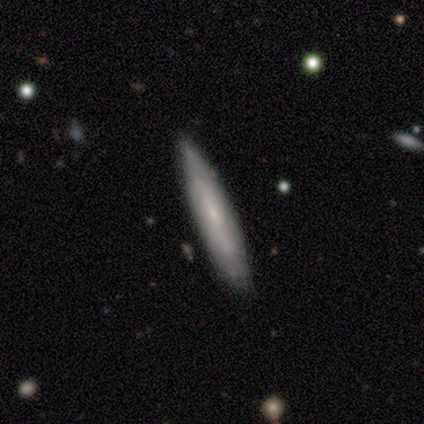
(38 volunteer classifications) smooth 61%, featured or disk 39%, star or artifact 0%. Down the decision tree: how rounded — cigar-shaped (96%); merging — none (74%).